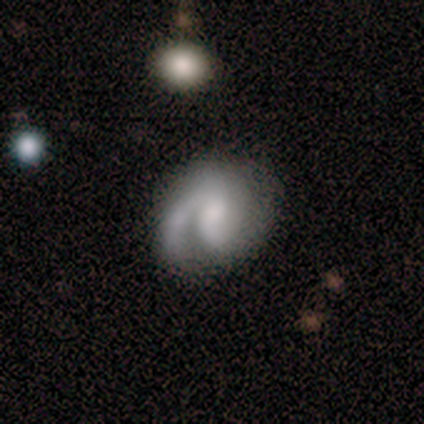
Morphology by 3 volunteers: A featured or disk galaxy (100%) with no bar (100%), 1 (100%) tight (67%) spiral arms (100%) and a large central bulge (33%, tied with small and none).

Vote fractions:
- Smooth or featured? featured or disk: 100% / smooth: 0% / star or artifact: 0%
- Edge-on disk? no: 100% / yes: 0%
- Bar? no: 100% / strong: 0% / weak: 0%
- Spiral arms? yes: 100% / no: 0%
- Spiral winding? tight: 67% / medium: 33% / loose: 0%
- Spiral arm count? 1: 100% / 2: 0% / 3: 0% / 4: 0% / more than 4: 0% / can't tell: 0%
- Bulge size? large: 33% (tied) / small: 33% (tied) / none: 33% (tied) / dominant: 0% / moderate: 0%
- Merging? none: 100% / minor disturbance: 0% / major disturbance: 0% / merger: 0%